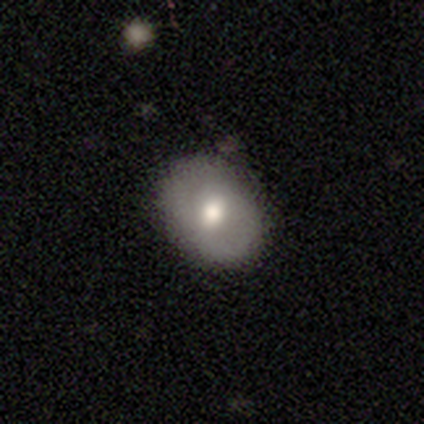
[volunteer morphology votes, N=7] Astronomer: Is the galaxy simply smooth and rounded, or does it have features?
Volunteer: smooth — 71%.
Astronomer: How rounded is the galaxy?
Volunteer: round — 60% (runner-up: in between, 40%).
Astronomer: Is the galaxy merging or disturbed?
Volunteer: none — 50% (runner-up: minor disturbance, 33%).